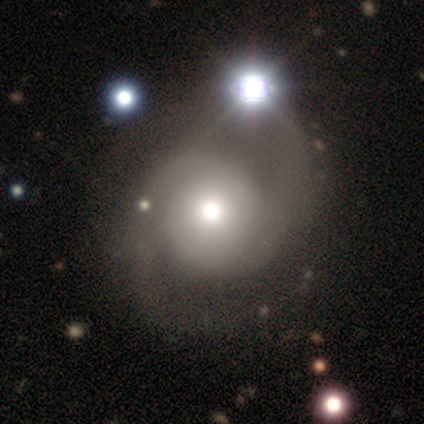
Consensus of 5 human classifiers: smooth-or-featured: featured or disk: 60% | smooth: 40% | star or artifact: 0%
  disk-edge-on: no: 100% | yes: 0%
    bar: no: 67% | weak: 33% | strong: 0%
    has-spiral-arms: yes: 67% | no: 33%
      spiral-winding: tight: 50% (tied) | loose: 50% (tied) | medium: 0%
      spiral-arm-count: 2: 100% | 1: 0% | 3: 0% | 4: 0% | more than 4: 0% | can't tell: 0%
    bulge-size: dominant: 33% (tied) | large: 33% (tied) | moderate: 33% (tied) | small: 0% | none: 0%
  merging: minor disturbance: 60% | none: 40% | major disturbance: 0% | merger: 0%